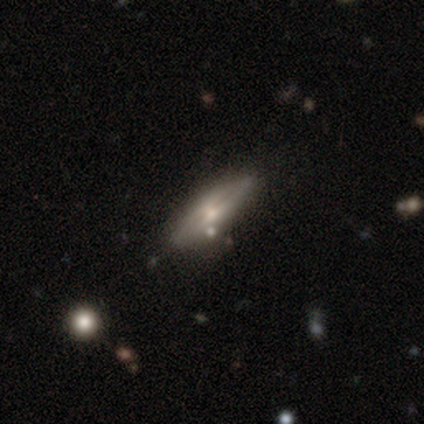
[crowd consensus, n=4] Smooth or featured?
  - featured or disk: 100% *
  - smooth: 0%
  - star or artifact: 0%
Edge-on disk?
  - yes: 75% *
  - no: 25%
Edge-on bulge?
  - rounded: 67% *
  - none: 33%
  - boxy: 0%
Merging?
  - none: 50% *
  - minor disturbance: 25%
  - major disturbance: 25%
  - merger: 0%